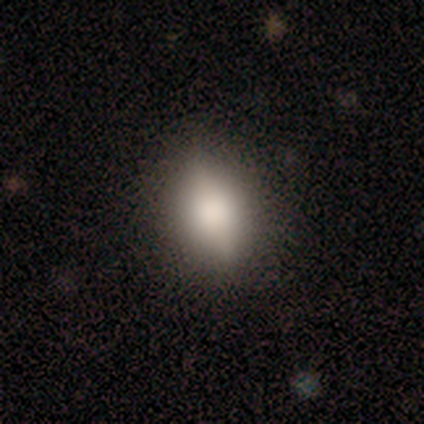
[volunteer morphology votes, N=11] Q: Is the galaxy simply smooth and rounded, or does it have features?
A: smooth — 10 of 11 (91%).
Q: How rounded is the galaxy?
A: in between — 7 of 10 (70%).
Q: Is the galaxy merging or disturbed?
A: none — 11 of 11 (100%).